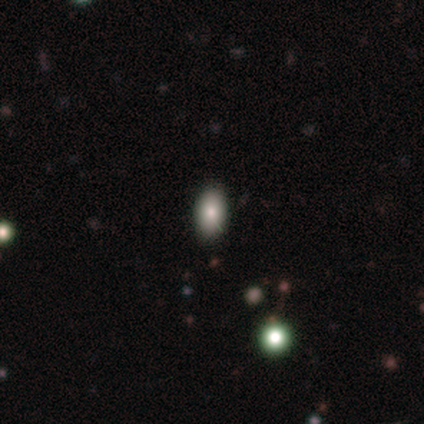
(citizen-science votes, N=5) This appears to be a smooth galaxy with no disk features (80%) that is in between round and cigar-shaped (75%). Merging: none (80%).